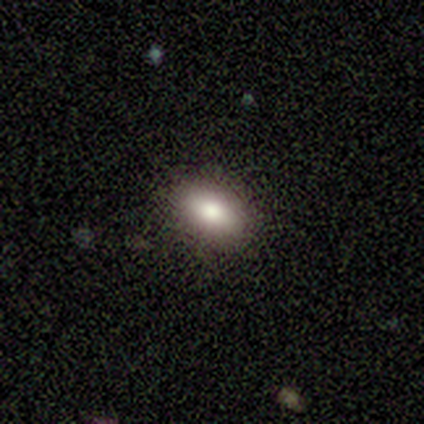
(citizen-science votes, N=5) Smooth or featured: smooth — 80% (featured or disk — 20%)
How rounded: in between — 75% (cigar-shaped — 25%)
Merging: none — 100%